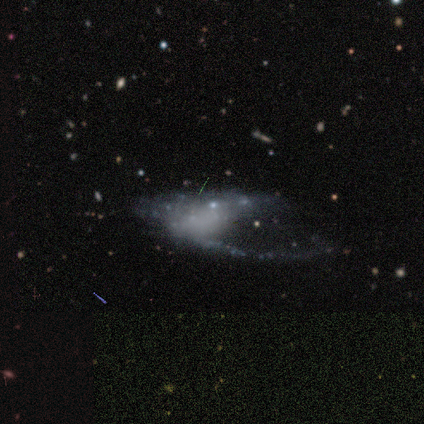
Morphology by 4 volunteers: Volunteers were most divided on "spiral arms": no: 67%, yes: 33%. More confident: edge-on disk — no (100%); bar — no (100%); bulge size — none (100%); smooth or featured — featured or disk (75%); merging — major disturbance (67%).